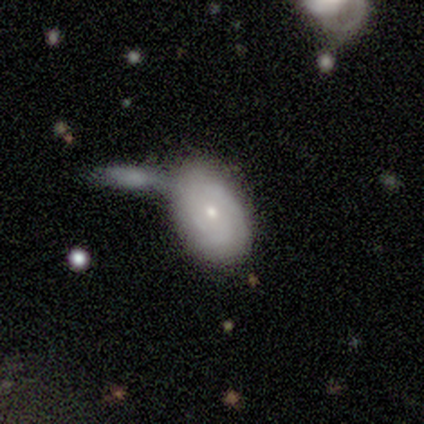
Smooth or featured?
  - smooth: 67% *
  - featured or disk: 33%
  - star or artifact: 0%
How rounded?
  - in between: 100% *
  - round: 0%
  - cigar-shaped: 0%
Merging?
  - none: 33% * (tied)
  - minor disturbance: 33% * (tied)
  - merger: 33% * (tied)
  - major disturbance: 0%